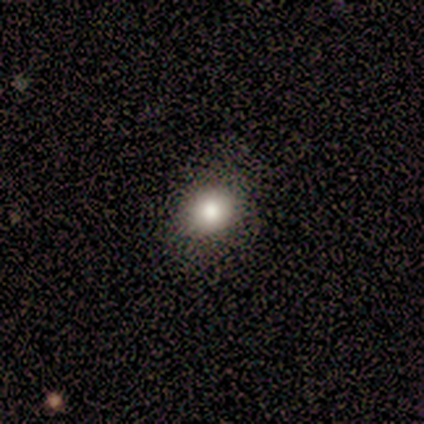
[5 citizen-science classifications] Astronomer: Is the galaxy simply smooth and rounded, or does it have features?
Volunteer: smooth — 100%.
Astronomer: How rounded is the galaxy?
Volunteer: round — 80%.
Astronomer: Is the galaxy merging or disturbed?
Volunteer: none — 60% (runner-up: minor disturbance, 40%).